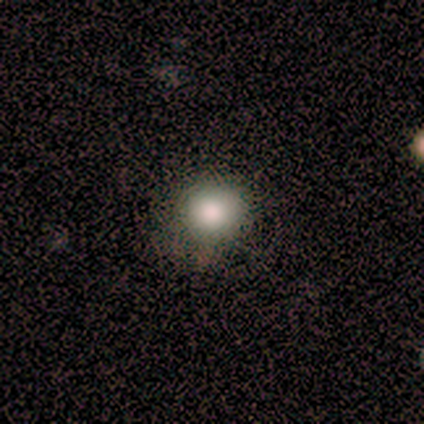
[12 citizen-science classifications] Q: Smooth or featured?
A: smooth (83%); runner-up: featured or disk (8%)
Q: How rounded?
A: round (90%); runner-up: in between (10%)
Q: Merging?
A: none (64%); runner-up: minor disturbance (36%)